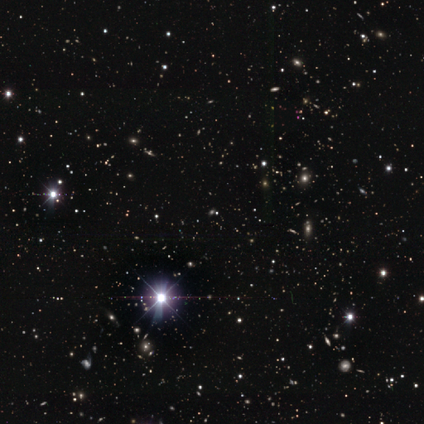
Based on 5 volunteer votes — Smooth or featured? star or artifact (60%)